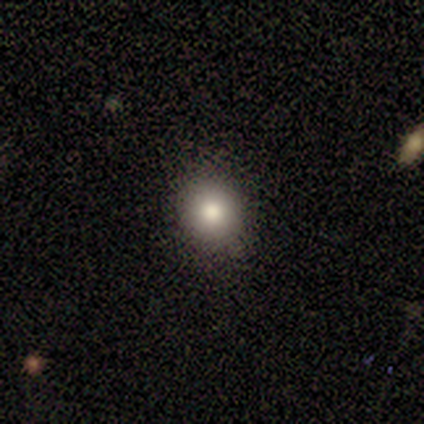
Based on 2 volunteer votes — smooth_or_featured: smooth (p=1.00)
how_rounded: round (p=0.50) [tied with: in between p=0.50]
merging: none (p=0.50) [tied with: minor disturbance p=0.50]